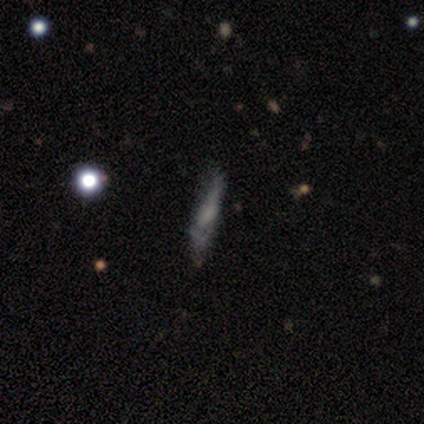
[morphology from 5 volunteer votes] Smooth or featured: smooth — 80% (star or artifact — 20%)
How rounded: cigar-shaped — 75% (in between — 25%)
Merging: none — 50% (minor disturbance — 25%)